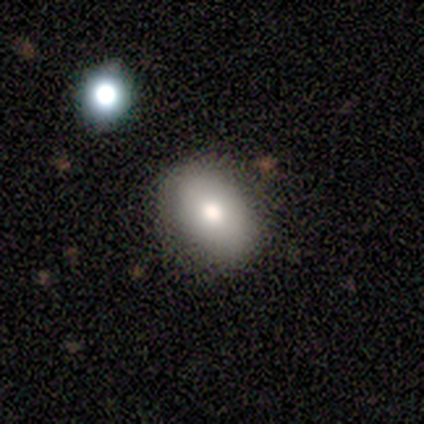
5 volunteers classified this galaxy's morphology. smooth_or_featured: smooth (p=0.80) [alt: star or artifact p=0.20]
how_rounded: in between (p=0.75) [alt: round p=0.25]
merging: none (p=1.00)